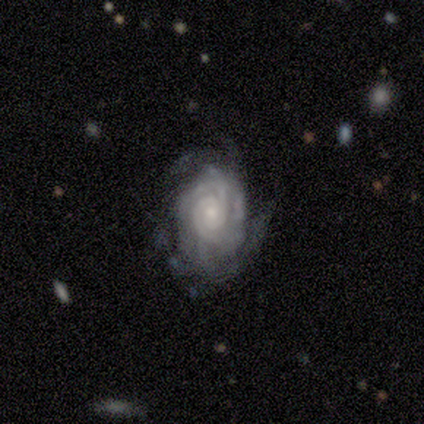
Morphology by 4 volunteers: This appears to be a featured or disk galaxy (100%) with no bar (100%), 3 (33%, tied with more than 4 and can't tell) tight (100%) spiral arms (75%) and a moderate central bulge (100%). Merging: none (75%).